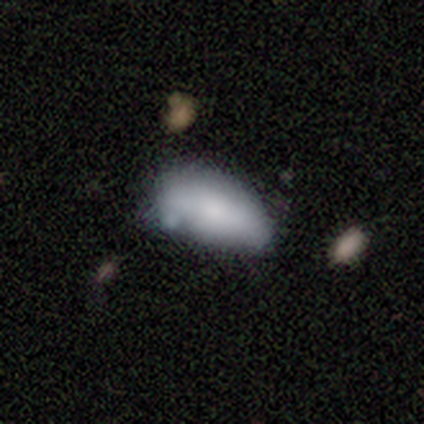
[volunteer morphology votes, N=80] A smooth galaxy with no disk features (76%) that is in between round and cigar-shaped (98%).

Vote fractions:
- Smooth or featured? smooth: 76% / featured or disk: 20% / star or artifact: 4%
- How rounded? in between: 98% / cigar-shaped: 2% / round: 0%
- Merging? none: 26% (tied) / minor disturbance: 26% (tied) / merger: 21% / major disturbance: 1%